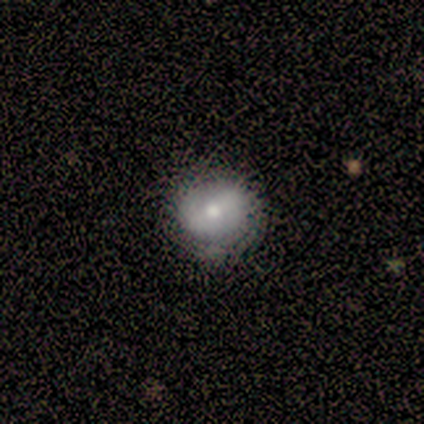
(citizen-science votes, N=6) Morphology: type=smooth (100%); roundness=round (100%); merging=none (100%).